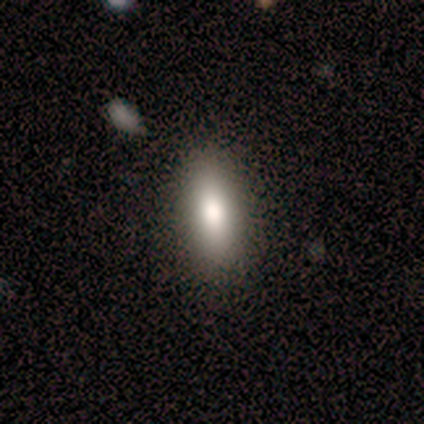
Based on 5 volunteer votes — Q: Smooth or featured?
A: smooth (80%); runner-up: featured or disk (20%)
Q: How rounded?
A: in between (75%); runner-up: cigar-shaped (25%)
Q: Merging?
A: none (100%)